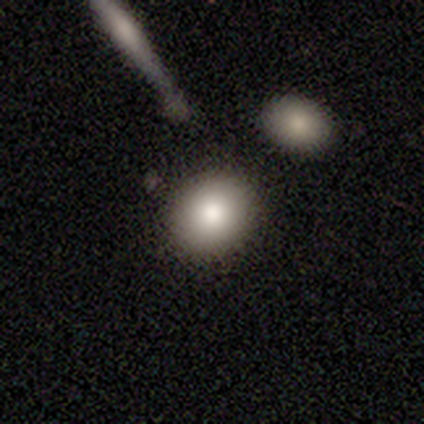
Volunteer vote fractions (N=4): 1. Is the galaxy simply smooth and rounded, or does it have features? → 100% smooth, 0% featured or disk, 0% star or artifact.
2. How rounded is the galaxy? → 100% round, 0% in between, 0% cigar-shaped.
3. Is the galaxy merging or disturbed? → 100% none, 0% minor disturbance, 0% major disturbance, 0% merger.